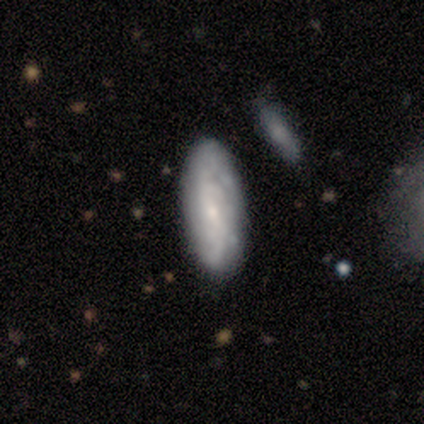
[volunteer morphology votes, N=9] Smooth or featured: featured or disk — 67% (smooth — 33%)
Edge-on disk: no — 67% (yes — 33%)
Bar: weak — 50% (tied with no — 50%)
Spiral arms: yes — 75% (no — 25%)
Spiral winding: loose — 67% (medium — 33%)
Spiral arm count: can't tell — 67% (2 — 33%)
Bulge size: small — 75% (moderate — 25%)
Merging: none — 78% (major disturbance — 11%)